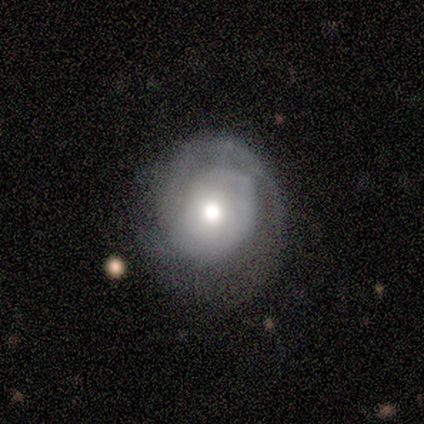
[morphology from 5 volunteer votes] Overall: featured or disk (80%). Edge-on disk: no (100%). Bar: no (75%). Spiral arms: yes (75%). Spiral arm count: 1 (33%, tied with 2 and can't tell). Spiral winding: tight (67%; medium 33%). Bulge size: large (50%, tied with moderate). Merging: major disturbance (50%; none 25%).